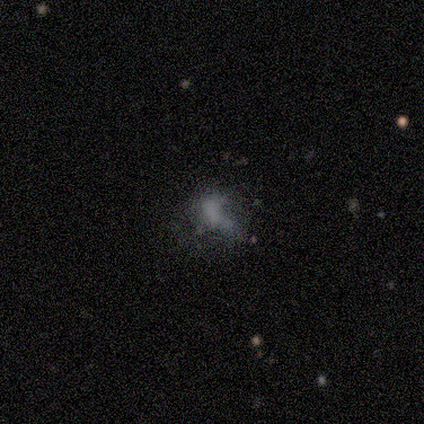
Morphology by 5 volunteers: type=smooth (40%, tied with star or artifact); roundness=in between (100%); merging=major disturbance (67%).